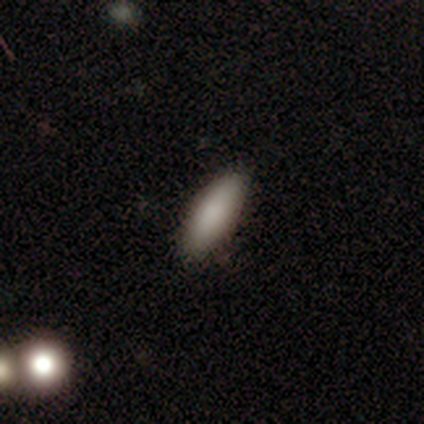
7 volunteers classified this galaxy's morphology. Overall: smooth (86%). How rounded: cigar-shaped (67%; in between 33%). Merging: none (100%).